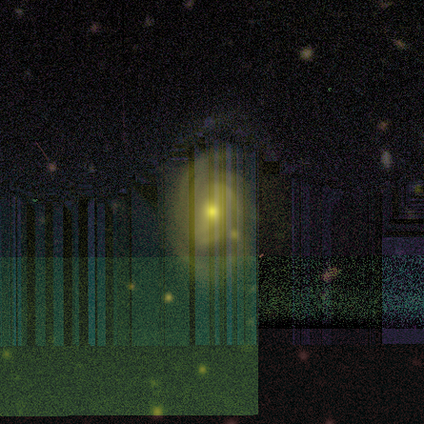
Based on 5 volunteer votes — Volunteers were most divided on "spiral winding" (2-way tie): tight: 50%, medium: 50%, loose: 0%; "bulge size" (2-way tie): moderate: 50%, small: 50%, dominant: 0%, large: 0%, none: 0%; "merging" (2-way tie): none: 50%, minor disturbance: 50%, major disturbance: 0%, merger: 0%. More confident: edge-on disk — no (100%); spiral arms — yes (100%); smooth or featured — featured or disk (80%); spiral arm count — can't tell (75%); bar — weak (50%).